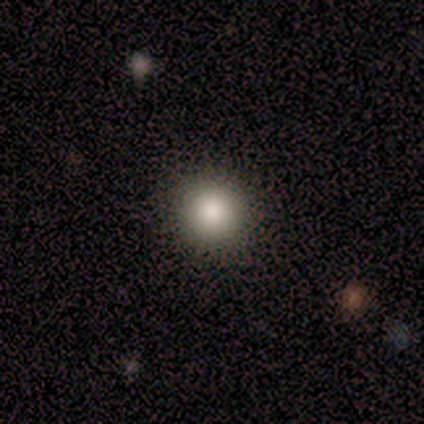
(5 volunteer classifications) A smooth galaxy with no disk features (80%) that is round (100%).

Vote fractions:
- Smooth or featured? smooth: 80% / star or artifact: 20% / featured or disk: 0%
- How rounded? round: 100% / in between: 0% / cigar-shaped: 0%
- Merging? none: 100% / minor disturbance: 0% / major disturbance: 0% / merger: 0%